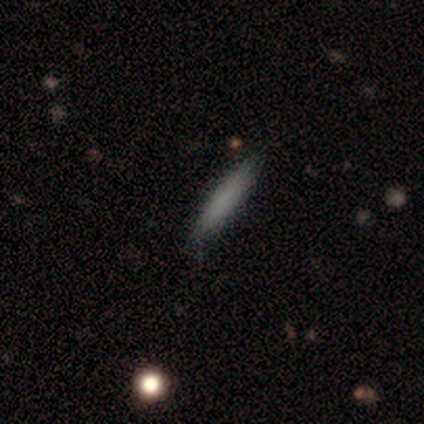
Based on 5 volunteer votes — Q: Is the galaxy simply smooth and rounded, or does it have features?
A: smooth — 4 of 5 (80%).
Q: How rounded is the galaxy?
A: cigar-shaped — 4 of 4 (100%).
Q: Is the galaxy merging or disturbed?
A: none — 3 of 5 (60%).